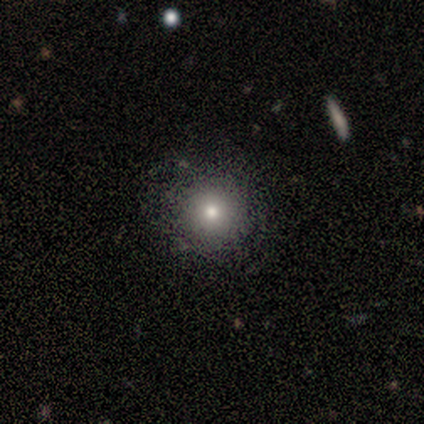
A smooth galaxy with no disk features (71%) that is round (80%). Merging: none (71%).